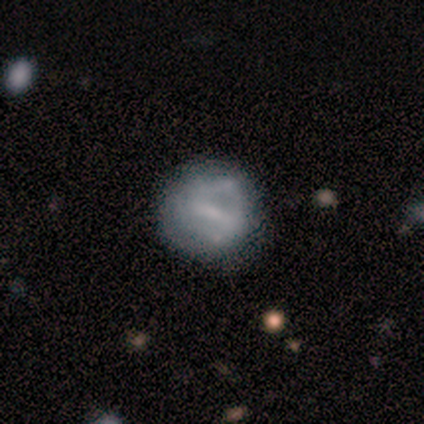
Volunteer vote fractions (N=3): Smooth or featured? 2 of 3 (67%) said smooth. How rounded? 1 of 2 (50%, tied with in between) said round. Merging? 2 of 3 (67%) said major disturbance.